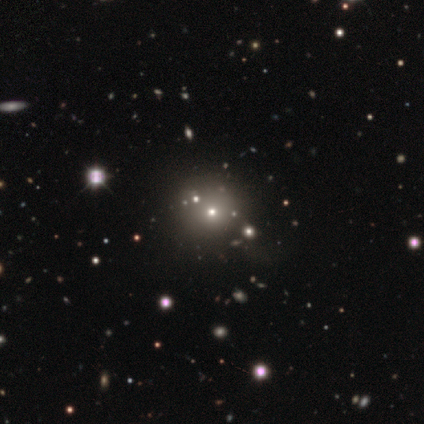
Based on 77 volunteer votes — Overall: smooth (60%; star or artifact 34%). How rounded: round (96%). Merging: none (39%; minor disturbance 8%).